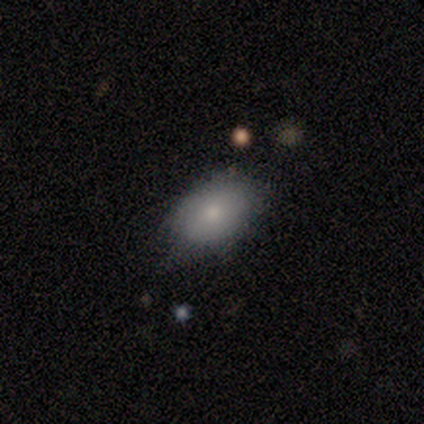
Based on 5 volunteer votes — Smooth or featured? smooth (100%)
How rounded? in between (80%)
Merging? none (80%)